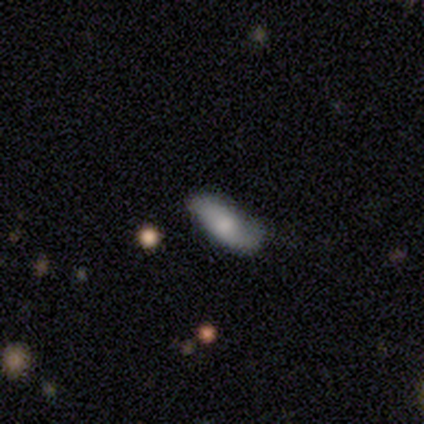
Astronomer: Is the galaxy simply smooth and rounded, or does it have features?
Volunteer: smooth — 80%.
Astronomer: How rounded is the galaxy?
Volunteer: in between — 100%.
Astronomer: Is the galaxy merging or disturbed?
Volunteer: none — 40%, tied with minor disturbance at 40%.